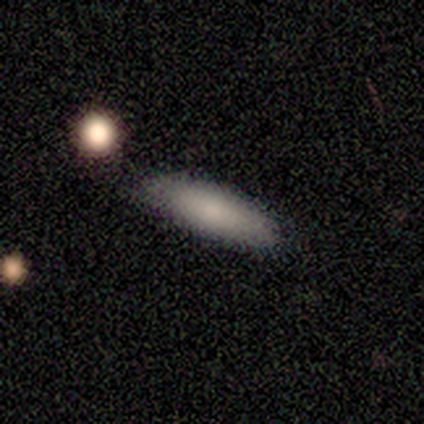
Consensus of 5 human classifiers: Smooth or featured: smooth — 60% (featured or disk — 40%)
How rounded: cigar-shaped — 67% (in between — 33%)
Merging: none — 60% (minor disturbance — 40%)